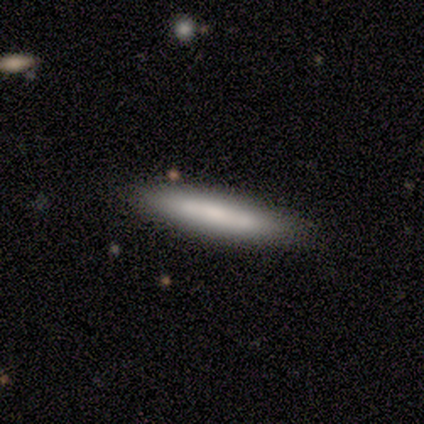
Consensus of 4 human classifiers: smooth_or_featured: featured or disk (p=0.50) [alt: smooth p=0.25]
disk_edge_on: yes (p=1.00)
edge_on_bulge: none (p=1.00)
merging: none (p=1.00)